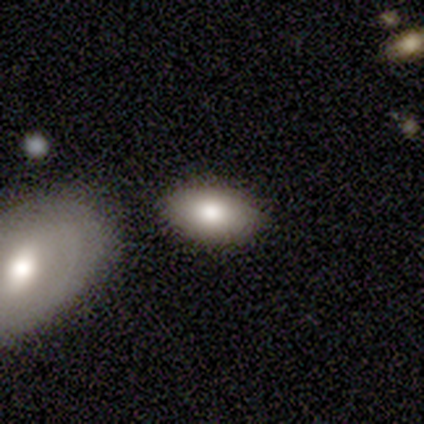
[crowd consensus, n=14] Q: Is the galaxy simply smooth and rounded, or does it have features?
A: smooth — 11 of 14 (79%).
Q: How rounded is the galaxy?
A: in between — 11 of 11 (100%).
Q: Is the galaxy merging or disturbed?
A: none — 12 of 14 (86%).